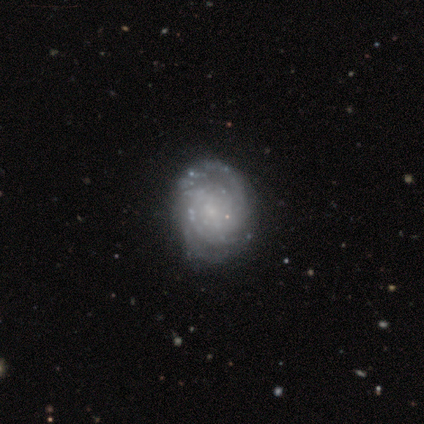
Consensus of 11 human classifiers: featured or disk 82%, smooth 9%, star or artifact 9%. Down the decision tree: edge-on disk — no (100%); bar — no (89%); spiral arms — yes (100%); spiral arm count — can't tell (56%); spiral winding — tight (78%); bulge size — small (56%); merging — none (80%).